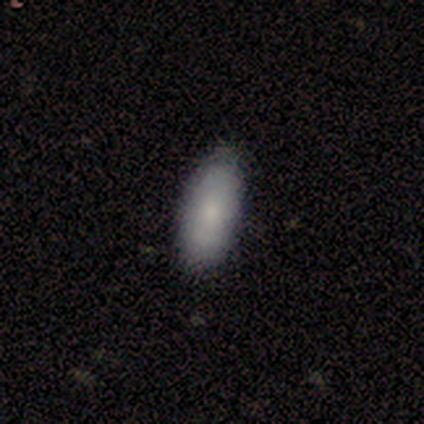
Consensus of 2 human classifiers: smooth_or_featured: smooth (p=0.50) [tied with: featured or disk p=0.50]
how_rounded: in between (p=1.00)
merging: none (p=1.00)